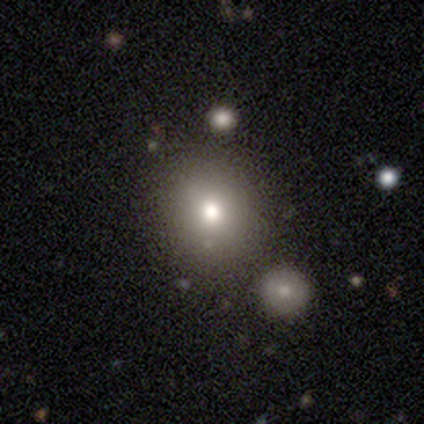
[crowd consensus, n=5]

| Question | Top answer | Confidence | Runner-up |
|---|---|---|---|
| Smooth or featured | smooth | 80% | featured or disk (20%) |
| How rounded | round | 100% | — |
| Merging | none | 60% | minor disturbance (20%) |